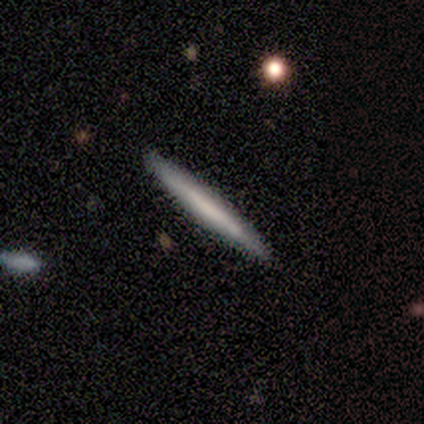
Smooth or featured? 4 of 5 (80%) said smooth. How rounded? 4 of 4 (100%) said cigar-shaped. Merging? 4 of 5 (80%) said none.